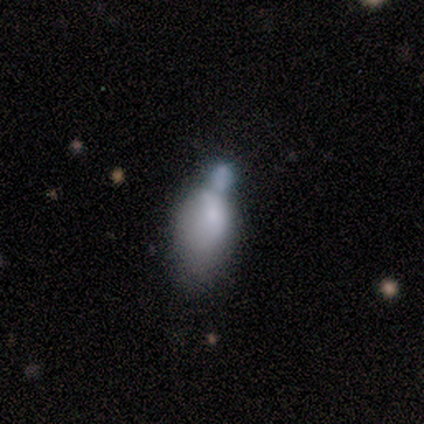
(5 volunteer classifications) smooth-or-featured: smooth: 60% | featured or disk: 20% | star or artifact: 20%
  how-rounded: in between: 100% | round: 0% | cigar-shaped: 0%
  merging: merger: 75% | minor disturbance: 25% | none: 0% | major disturbance: 0%